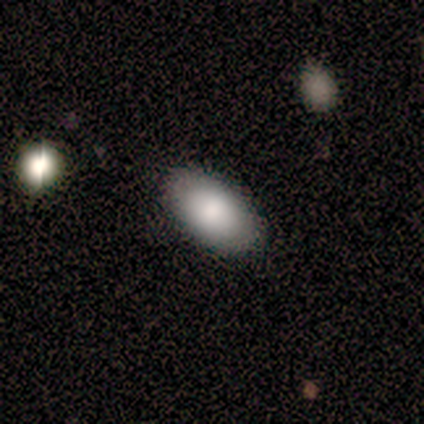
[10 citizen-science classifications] This is clearly a smooth galaxy (80%). How rounded: clearly in between (100%). Merging: clearly none (100%).